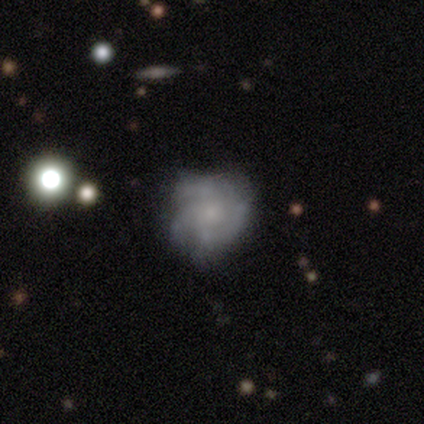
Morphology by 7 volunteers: Smooth or featured? 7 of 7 (100%) said featured or disk. Edge-on disk? 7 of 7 (100%) said no. Bar? 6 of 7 (86%) said no. Spiral arms? 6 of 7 (86%) said yes. Spiral winding? 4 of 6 (67%) said medium. Spiral arm count? 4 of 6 (67%) said 3. Bulge size? 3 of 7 (43%, tied with none) said small. Merging? 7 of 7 (100%) said none.